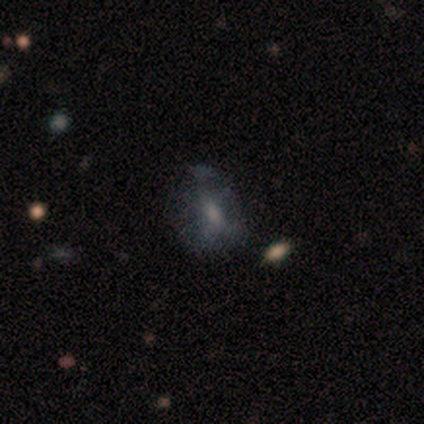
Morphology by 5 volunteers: Smooth or featured? smooth (40%, tied with featured or disk)
How rounded? in between (100%)
Merging? none (75%)